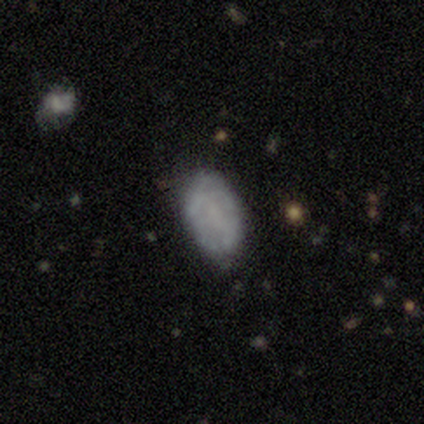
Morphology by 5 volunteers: Overall: featured or disk (60%; smooth 40%). Edge-on disk: no (100%). Bar: no (67%; weak 33%). Spiral arms: no (67%; yes 33%). Bulge size: none (100%). Merging: none (60%; minor disturbance 40%).